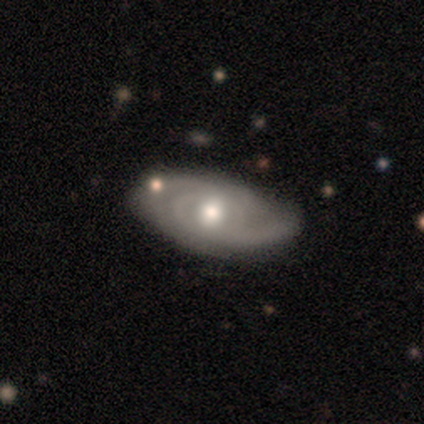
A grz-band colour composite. It shows a featured or disk galaxy (86%) with no bar (83%), 2 (40%, tied with can't tell) tight (100%) spiral arms (83%) and a moderate central bulge (83%). Merging: none (86%).